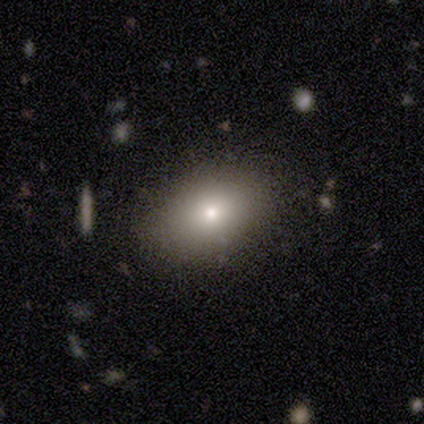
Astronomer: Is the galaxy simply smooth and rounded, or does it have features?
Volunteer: smooth — 100%.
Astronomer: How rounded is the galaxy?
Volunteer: in between — 100%.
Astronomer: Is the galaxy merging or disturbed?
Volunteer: none — 100%.